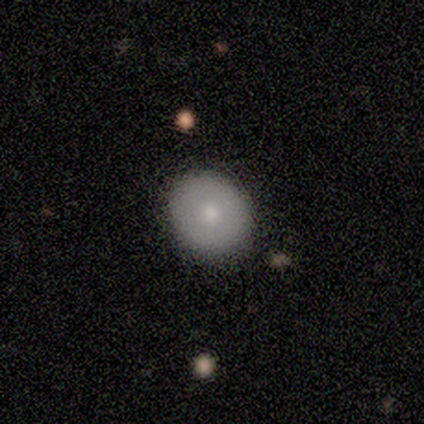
This is likely a featured or disk galaxy (67%). It is clearly not viewed edge-on (100%). Bar: clearly no (100%). Spiral arm pattern: clearly no (100%). Central bulge: possibly moderate (50%, tied with small). Merging: clearly none (100%).